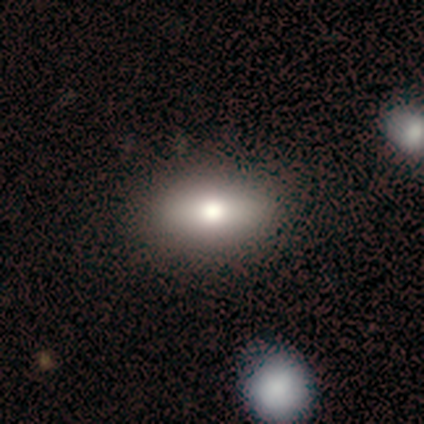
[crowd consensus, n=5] Smooth or featured? smooth (80%)
How rounded? in between (75%)
Merging? none (25%, tied with minor disturbance, major disturbance and merger)